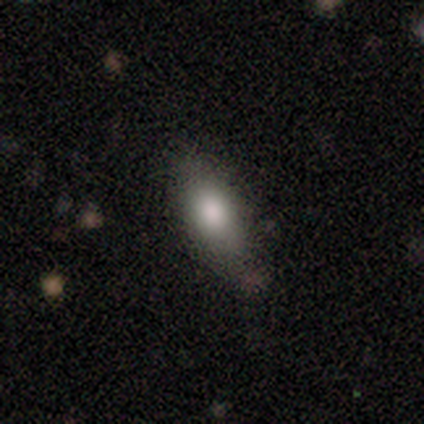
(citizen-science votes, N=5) A smooth galaxy with no disk features (100%) that is in between round and cigar-shaped (100%). Merging: none (80%).